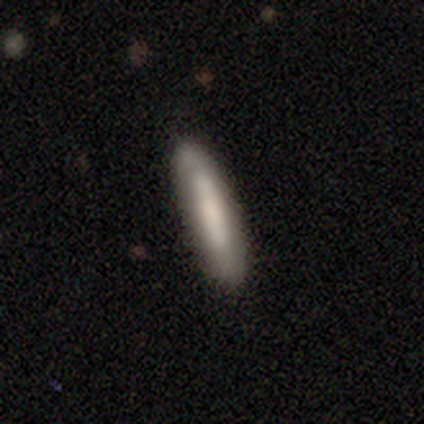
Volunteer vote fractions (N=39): smooth_or_featured: smooth (p=0.64) [alt: featured or disk p=0.36]
how_rounded: cigar-shaped (p=0.92) [alt: in between p=0.08]
merging: none (p=0.90) [alt: minor disturbance p=0.05]